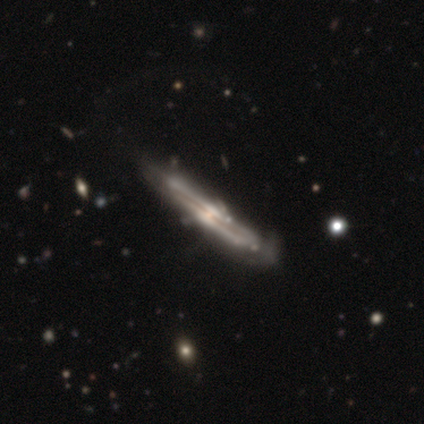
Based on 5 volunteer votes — Morphology: type=featured or disk (80%); edge-on=yes (100%); edge-on bulge=rounded (100%); merging=none (60%).